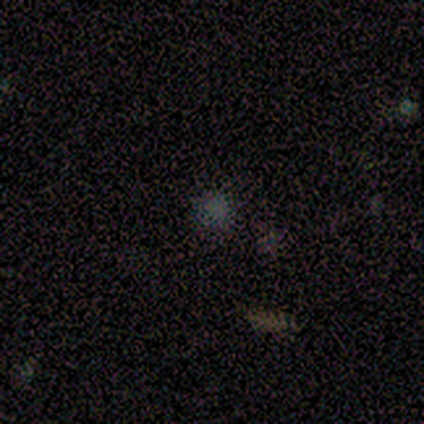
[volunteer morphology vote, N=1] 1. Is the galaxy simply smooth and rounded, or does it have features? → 100% smooth, 0% featured or disk, 0% star or artifact.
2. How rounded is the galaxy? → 100% round, 0% in between, 0% cigar-shaped.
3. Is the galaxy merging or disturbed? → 100% none, 0% minor disturbance, 0% major disturbance, 0% merger.